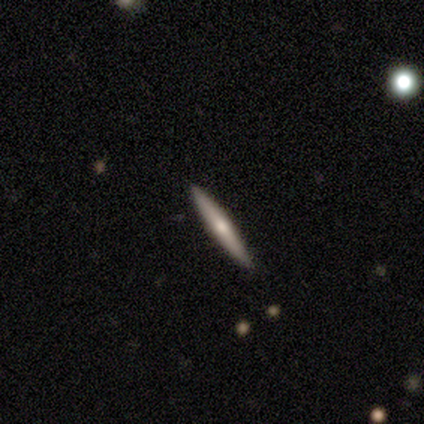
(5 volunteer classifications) Smooth or featured?
  - featured or disk: 60% *
  - smooth: 40%
  - star or artifact: 0%
Edge-on disk?
  - yes: 100% *
  - no: 0%
Edge-on bulge?
  - rounded: 67% *
  - none: 33%
  - boxy: 0%
Merging?
  - none: 100% *
  - minor disturbance: 0%
  - major disturbance: 0%
  - merger: 0%